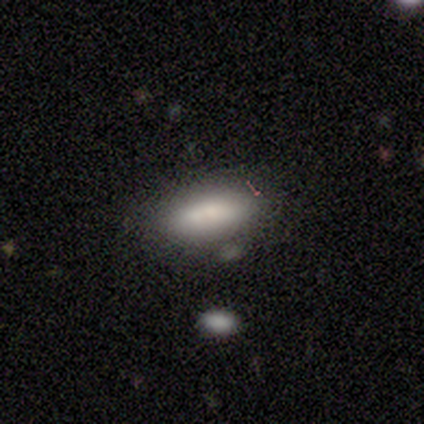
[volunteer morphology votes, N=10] smooth_or_featured: smooth (p=1.00)
how_rounded: in between (p=1.00)
merging: none (p=0.80) [alt: minor disturbance p=0.10]